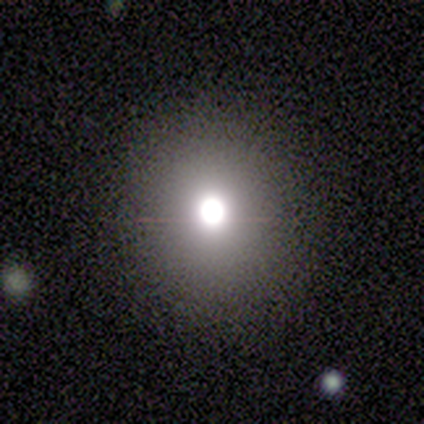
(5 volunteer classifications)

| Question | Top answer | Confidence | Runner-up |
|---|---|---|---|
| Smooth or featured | star or artifact | 60% | smooth (40%) |